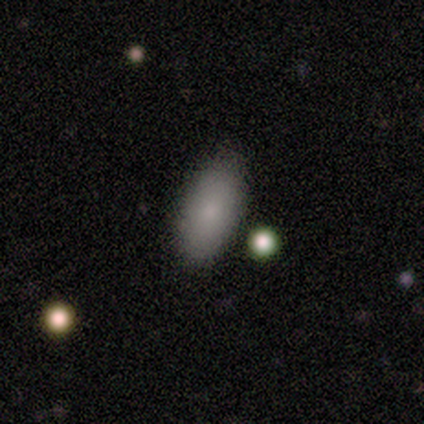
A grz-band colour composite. It shows a smooth galaxy with no disk features (62%) that is in between round and cigar-shaped (100%). Merging: none (57%).